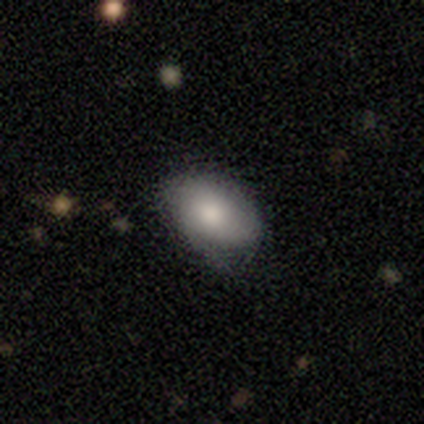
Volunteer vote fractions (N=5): Overall: smooth (60%; featured or disk 40%). How rounded: in between (100%). Merging: minor disturbance (60%; none 40%).